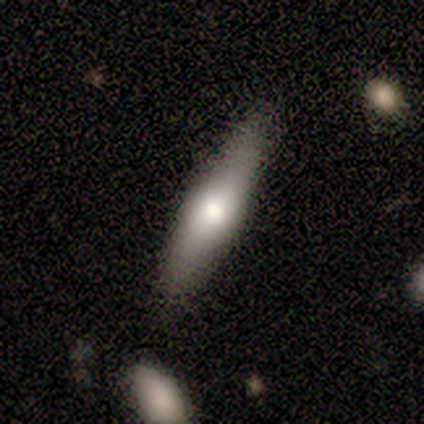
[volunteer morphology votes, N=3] This appears to be a smooth galaxy with no disk features (67%) that is in between round and cigar-shaped (50%, tied with cigar-shaped). Merging: none (67%).